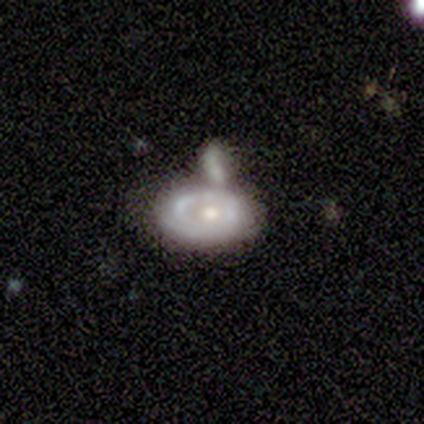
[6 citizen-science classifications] Smooth or featured? smooth (50%, tied with featured or disk)
How rounded? round (67%)
Merging? none (50%)